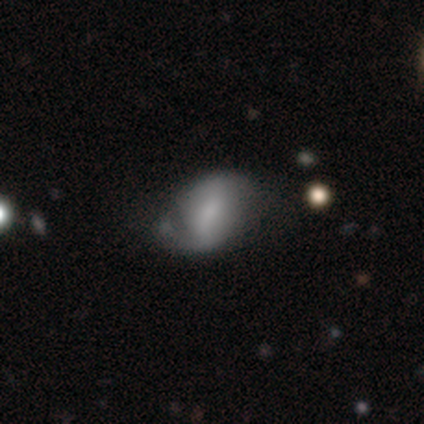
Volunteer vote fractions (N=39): Smooth or featured: featured or disk — 77% (smooth — 23%)
Edge-on disk: no — 100%
Bar: weak — 50% (no — 30%)
Spiral arms: yes — 70% (no — 30%)
Spiral winding: medium — 48% (loose — 33%)
Spiral arm count: 2 — 67% (can't tell — 19%)
Bulge size: small — 37% (tied with none — 37%)
Merging: none — 36% (minor disturbance — 21%)